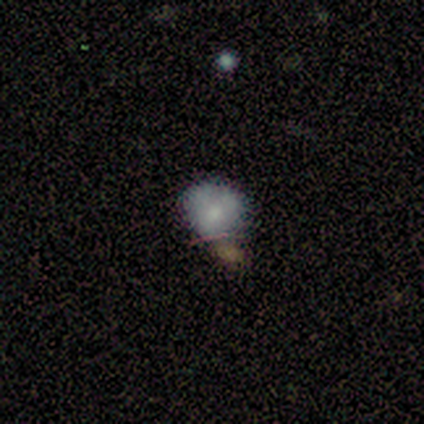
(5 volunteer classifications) A smooth galaxy with no disk features (60%) that is round (67%).

Vote fractions:
- Smooth or featured? smooth: 60% / featured or disk: 40% / star or artifact: 0%
- How rounded? round: 67% / in between: 33% / cigar-shaped: 0%
- Merging? none: 40% (tied) / minor disturbance: 40% (tied) / merger: 20% / major disturbance: 0%